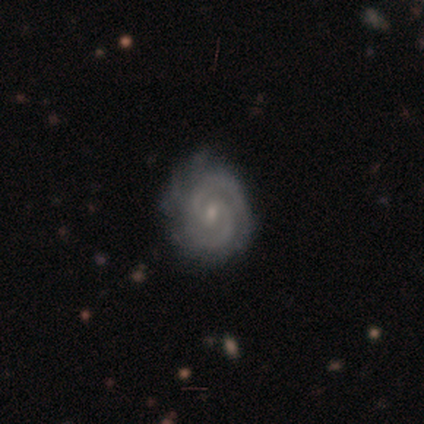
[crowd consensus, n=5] Smooth or featured: featured or disk — 100%
Edge-on disk: no — 100%
Bar: strong — 40% (tied with no — 40%)
Spiral arms: yes — 100%
Spiral winding: tight — 80% (medium — 20%)
Spiral arm count: 2 — 60% (3 — 20%)
Bulge size: small — 60% (moderate — 20%)
Merging: none — 60% (minor disturbance — 40%)